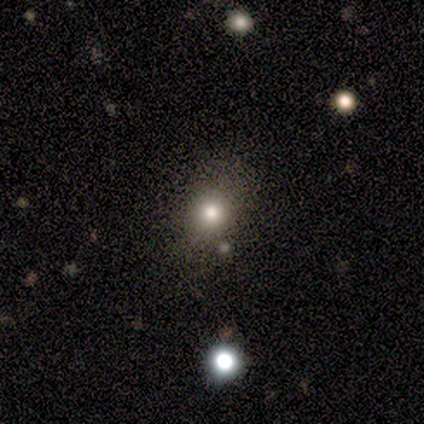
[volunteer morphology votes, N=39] smooth 64%, featured or disk 21%, star or artifact 15%. Down the decision tree: how rounded — round (60%); merging — none (79%).